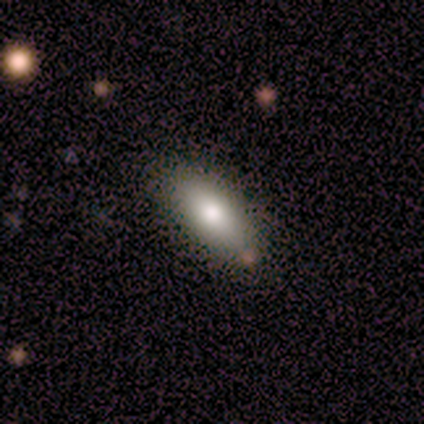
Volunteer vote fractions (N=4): This appears to be a smooth galaxy with no disk features (75%) that is in between round and cigar-shaped (100%). Merging: none (67%).